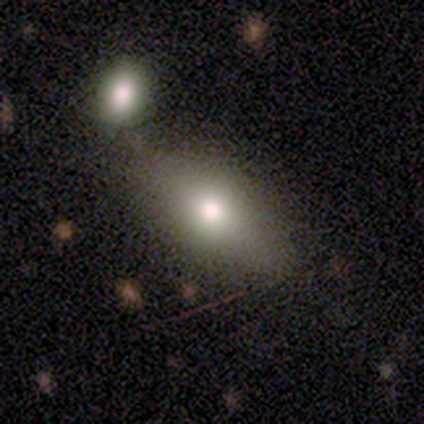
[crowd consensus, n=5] Smooth or featured? 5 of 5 (100%) said smooth. How rounded? 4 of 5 (80%) said in between. Merging? 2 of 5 (40%, tied with minor disturbance) said none.